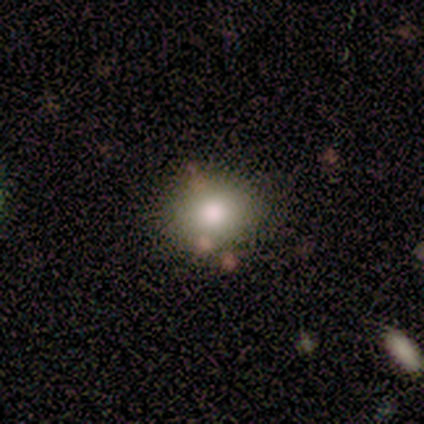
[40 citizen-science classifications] Smooth or featured?
  - smooth: 78% *
  - star or artifact: 12%
  - featured or disk: 10%
How rounded?
  - round: 68% *
  - in between: 32%
  - cigar-shaped: 0%
Merging?
  - none: 86% *
  - minor disturbance: 14%
  - major disturbance: 0%
  - merger: 0%